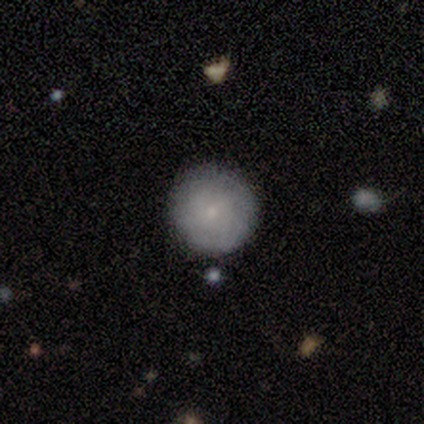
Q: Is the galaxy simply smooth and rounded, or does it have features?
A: smooth — 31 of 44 (70%).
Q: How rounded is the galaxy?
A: round — 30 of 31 (97%).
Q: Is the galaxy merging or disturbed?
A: none — 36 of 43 (84%).